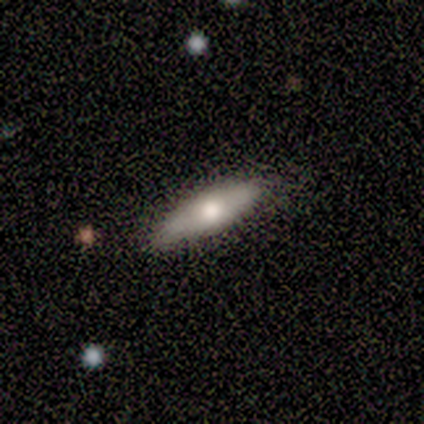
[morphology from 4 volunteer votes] Volunteers were most divided on "edge-on bulge" (2-way tie): none: 50%, rounded: 50%, boxy: 0%. More confident: merging — none (100%); smooth or featured — featured or disk (75%); edge-on disk — yes (67%).